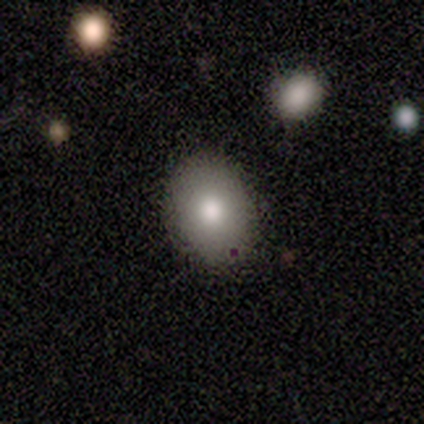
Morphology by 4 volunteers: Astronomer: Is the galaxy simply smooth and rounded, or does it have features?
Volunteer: smooth — 75%.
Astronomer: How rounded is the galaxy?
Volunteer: round — 67%.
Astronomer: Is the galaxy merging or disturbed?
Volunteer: none — 67%.